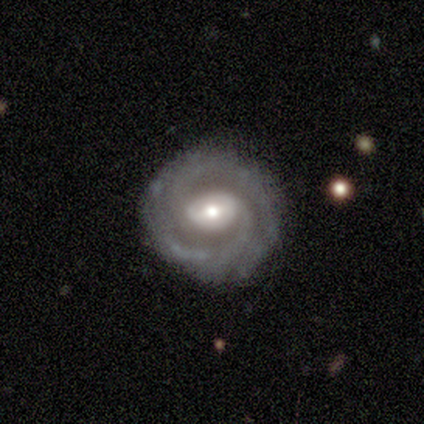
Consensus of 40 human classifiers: Morphology: type=featured or disk (90%); edge-on=no (92%); bar=strong (45%); spiral arms=yes (97%); winding=tight (62%); arm count=2 (50%); bulge=moderate (61%); merging=none (90%).